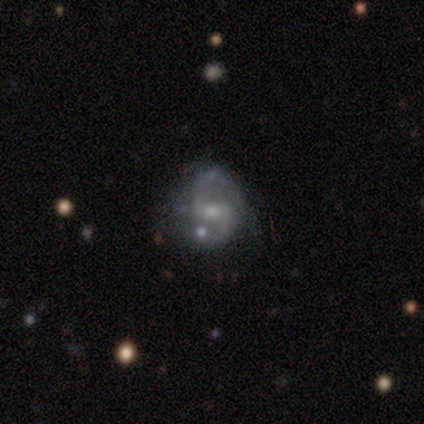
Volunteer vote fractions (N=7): Overall: featured or disk (86%). Edge-on disk: no (100%). Bar: no (67%; strong 33%). Spiral arms: yes (67%; no 33%). Spiral arm count: 2 (75%). Spiral winding: loose (50%; tight 25%). Bulge size: small (67%; moderate 33%). Merging: none (50%; minor disturbance 33%).